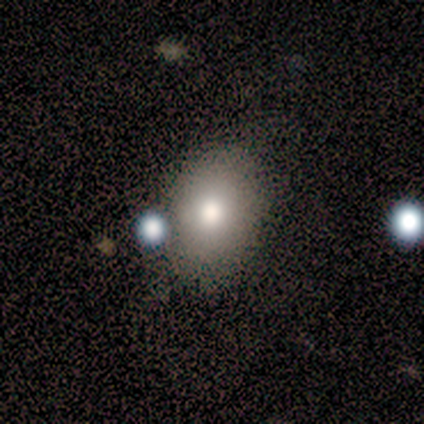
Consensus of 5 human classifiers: Smooth or featured? smooth (80%)
How rounded? round (50%, tied with in between)
Merging? none (50%, tied with minor disturbance)